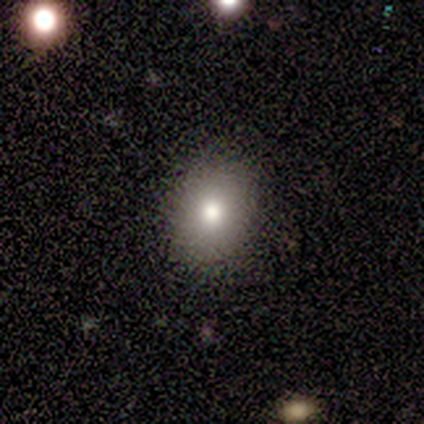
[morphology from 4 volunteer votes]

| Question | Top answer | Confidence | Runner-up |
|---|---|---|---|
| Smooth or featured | smooth | 100% | — |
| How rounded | in between | 75% | round (25%) |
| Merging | none | 75% | minor disturbance (25%) |